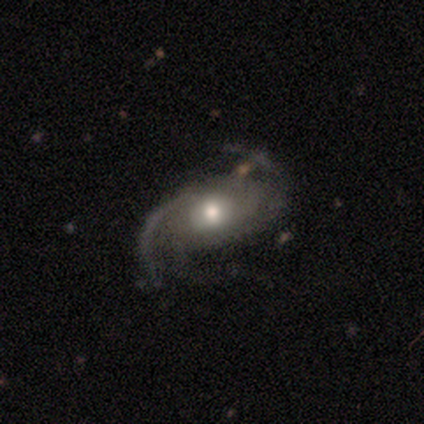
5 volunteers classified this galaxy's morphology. featured or disk 80%, star or artifact 20%, smooth 0%. Down the decision tree: edge-on disk — no (100%); bar — weak (50%, tied with no); spiral arms — yes (100%); spiral arm count — 2 (100%); spiral winding — medium (50%); bulge size — moderate (50%, tied with small); merging — none (75%).